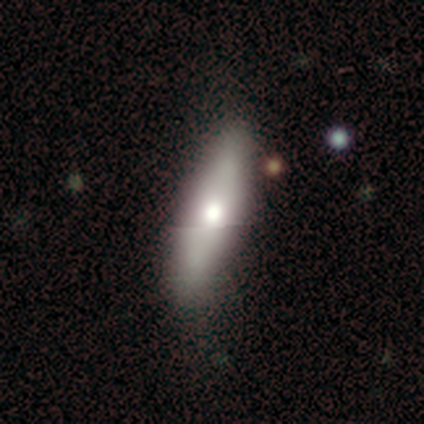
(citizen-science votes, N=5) Volunteers were most divided on "smooth or featured" (2-way tie): smooth: 40%, featured or disk: 40%, star or artifact: 20%; "how rounded" (2-way tie): in between: 50%, cigar-shaped: 50%, round: 0%. More confident: merging — none (75%).